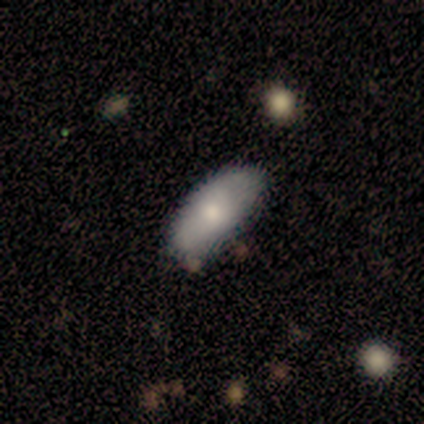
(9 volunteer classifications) A smooth galaxy with no disk features (78%) that is in between round and cigar-shaped (100%).

Vote fractions:
- Smooth or featured? smooth: 78% / featured or disk: 22% / star or artifact: 0%
- How rounded? in between: 100% / round: 0% / cigar-shaped: 0%
- Merging? none: 78% / major disturbance: 11% / merger: 11% / minor disturbance: 0%